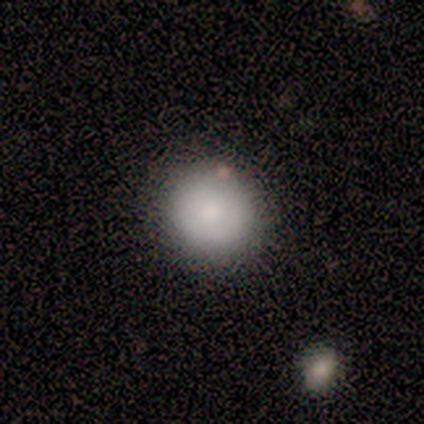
Volunteers were most divided on "smooth or featured": smooth: 60%, featured or disk: 40%, star or artifact: 0%. More confident: how rounded — round (100%); merging — none (60%).